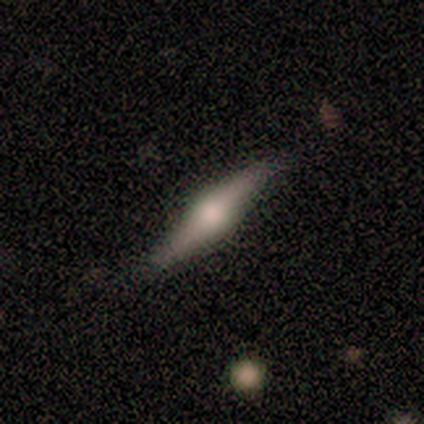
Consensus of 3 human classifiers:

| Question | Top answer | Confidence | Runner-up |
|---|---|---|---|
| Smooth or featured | featured or disk | 100% | — |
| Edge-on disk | yes | 100% | — |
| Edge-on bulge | rounded | 100% | — |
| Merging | none | 67% | minor disturbance (33%) |